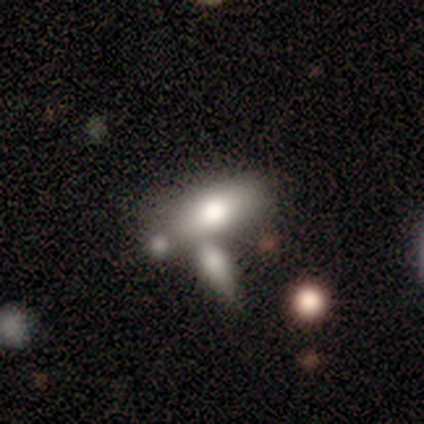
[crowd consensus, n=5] Smooth or featured?
  - smooth: 60% *
  - featured or disk: 40%
  - star or artifact: 0%
How rounded?
  - in between: 67% *
  - cigar-shaped: 33%
  - round: 0%
Merging?
  - merger: 60% *
  - none: 20%
  - major disturbance: 20%
  - minor disturbance: 0%